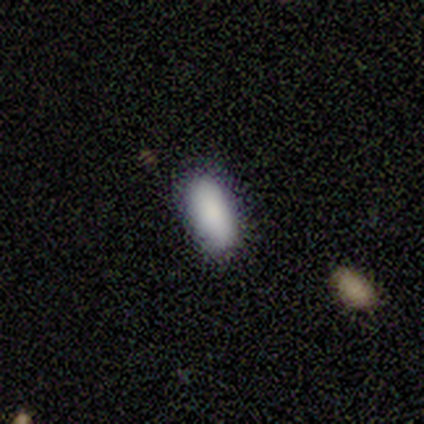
smooth 100%, featured or disk 0%, star or artifact 0%. Down the decision tree: how rounded — in between (80%); merging — none (80%).